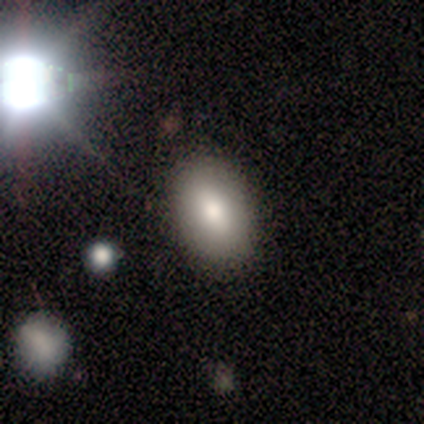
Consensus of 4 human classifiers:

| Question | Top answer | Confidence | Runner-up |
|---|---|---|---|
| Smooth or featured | smooth | 75% | star or artifact (25%) |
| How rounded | in between | 100% | — |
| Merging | none | 100% | — |